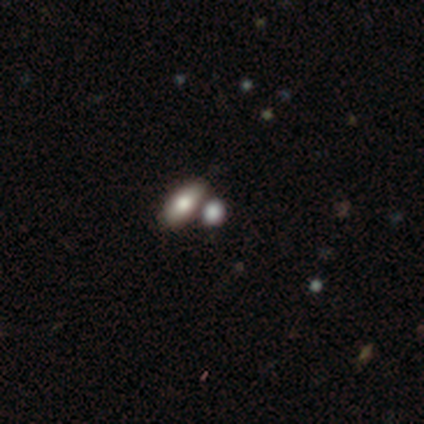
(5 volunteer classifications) This appears to be a smooth galaxy with no disk features (100%) that is in between round and cigar-shaped (60%). Merging: none (60%).